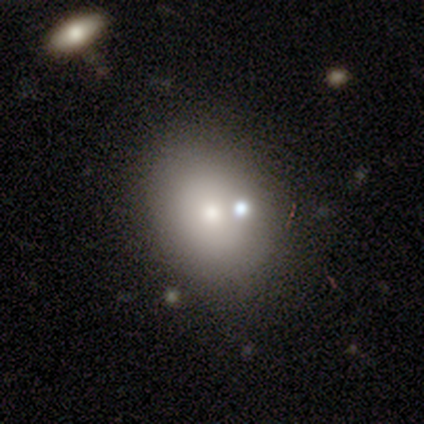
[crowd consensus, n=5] smooth 40% (tied), featured or disk 40% (tied), star or artifact 20%. Down the decision tree: how rounded — round (50%, tied with in between); merging — none (75%).